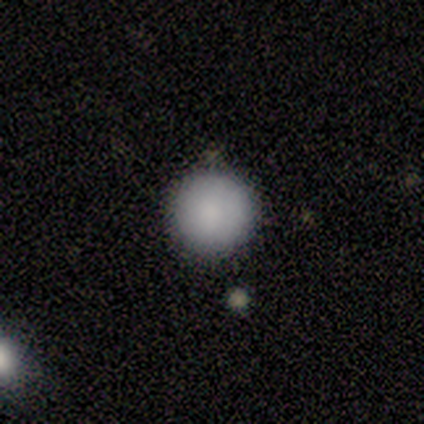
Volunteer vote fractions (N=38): This is clearly a smooth galaxy (89%). How rounded: clearly round (94%). Merging: clearly none (89%).